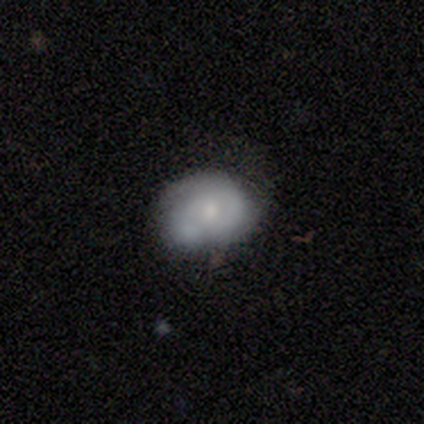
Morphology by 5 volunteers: This is clearly a featured or disk galaxy (80%). It is clearly not viewed edge-on (100%). Bar: likely no (75%). Spiral arm pattern: likely yes (75%). Spiral arm count: likely 2 (67%). Spiral winding: likely tight (67%). Central bulge: possibly small (50%). Merging: clearly none (80%).